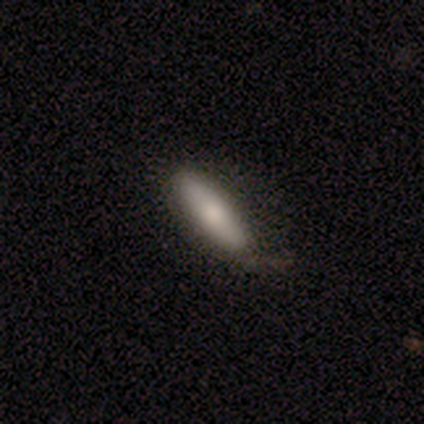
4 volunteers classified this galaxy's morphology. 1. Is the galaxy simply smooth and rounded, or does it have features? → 75% smooth, 25% featured or disk, 0% star or artifact.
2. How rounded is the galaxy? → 67% cigar-shaped, 33% in between, 0% round.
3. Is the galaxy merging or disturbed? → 75% none, 25% minor disturbance, 0% major disturbance, 0% merger.